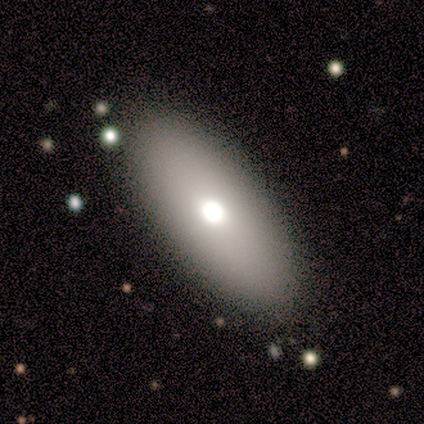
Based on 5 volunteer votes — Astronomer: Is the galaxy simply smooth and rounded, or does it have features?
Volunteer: featured or disk — 60% (runner-up: smooth, 40%).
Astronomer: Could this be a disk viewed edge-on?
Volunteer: no — 100%.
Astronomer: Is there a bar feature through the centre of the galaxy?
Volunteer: no — 100%.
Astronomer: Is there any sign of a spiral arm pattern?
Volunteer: no — 100%.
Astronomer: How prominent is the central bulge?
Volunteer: moderate — 100%.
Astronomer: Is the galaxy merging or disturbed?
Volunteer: none — 100%.